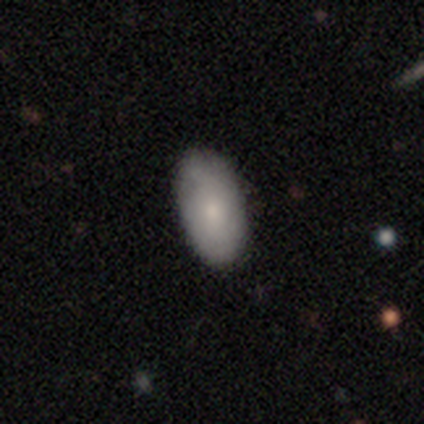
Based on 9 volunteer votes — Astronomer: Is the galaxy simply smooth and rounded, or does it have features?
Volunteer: smooth — 67%.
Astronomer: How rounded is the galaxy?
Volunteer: in between — 100%.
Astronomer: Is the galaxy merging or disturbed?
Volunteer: none — 67%.